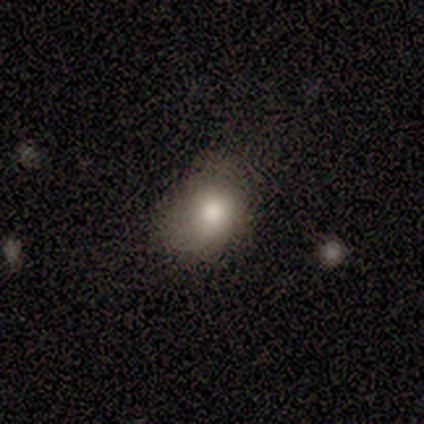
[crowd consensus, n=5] A smooth galaxy with no disk features (80%) that is round (50%, tied with in between). Merging: minor disturbance (75%).